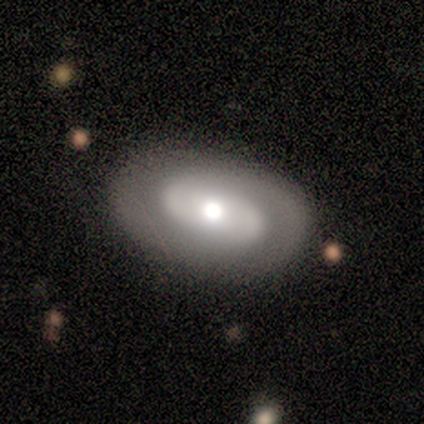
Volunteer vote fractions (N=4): This is clearly a featured or disk galaxy (100%). It is likely not viewed edge-on (75%). Bar: likely weak (67%). Spiral arm pattern: likely no (67%). Central bulge: likely small (67%). Merging: clearly none (100%).